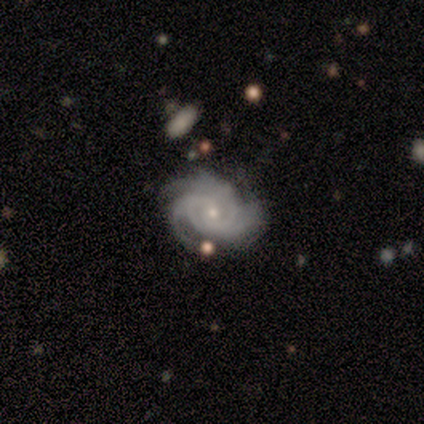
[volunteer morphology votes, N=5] Smooth or featured? 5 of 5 (100%) said featured or disk. Edge-on disk? 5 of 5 (100%) said no. Bar? 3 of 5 (60%) said no. Spiral arms? 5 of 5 (100%) said yes. Spiral winding? 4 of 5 (80%) said tight. Spiral arm count? 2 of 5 (40%, tied with 4) said 3. Bulge size? 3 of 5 (60%) said small. Merging? 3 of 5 (60%) said none.